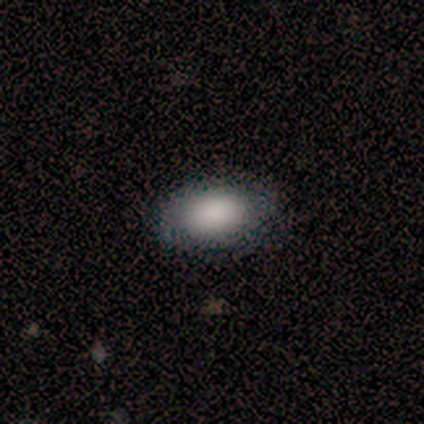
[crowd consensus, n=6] Q: Smooth or featured?
A: smooth (100%)
Q: How rounded?
A: in between (100%)
Q: Merging?
A: none (100%)